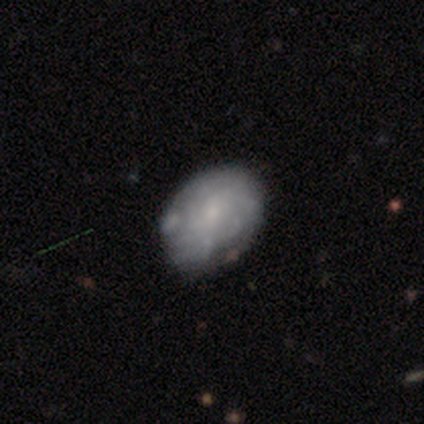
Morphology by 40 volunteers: A featured or disk galaxy (60%) with no bar (62%), tight (85%) spiral arms (54%) and a small central bulge (79%).

Vote fractions:
- Smooth or featured? featured or disk: 60% / smooth: 38% / star or artifact: 2%
- Edge-on disk? no: 100% / yes: 0%
- Bar? no: 62% / weak: 38% / strong: 0%
- Spiral arms? yes: 54% / no: 46%
- Spiral winding? tight: 85% / medium: 8% / loose: 8%
- Spiral arm count? can't tell: 69% / more than 4: 15% / 2: 8% / 3: 8% / 1: 0% / 4: 0%
- Bulge size? small: 79% / moderate: 17% / none: 4% / dominant: 0% / large: 0%
- Merging? none: 49% / minor disturbance: 21% / major disturbance: 3% / merger: 0%